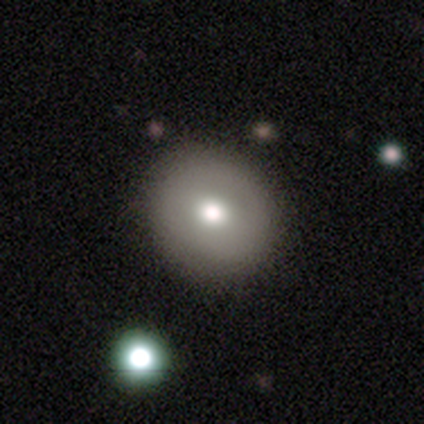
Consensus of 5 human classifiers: Smooth or featured? smooth (40%, tied with featured or disk)
How rounded? round (100%)
Merging? none (75%)